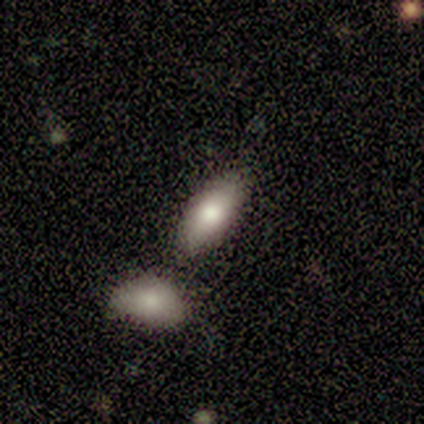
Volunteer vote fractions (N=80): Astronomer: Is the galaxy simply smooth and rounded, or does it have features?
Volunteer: smooth — 80%.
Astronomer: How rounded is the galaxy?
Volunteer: in between — 92%.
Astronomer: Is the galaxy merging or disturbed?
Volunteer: merger — 39% (runner-up: none, 35%).